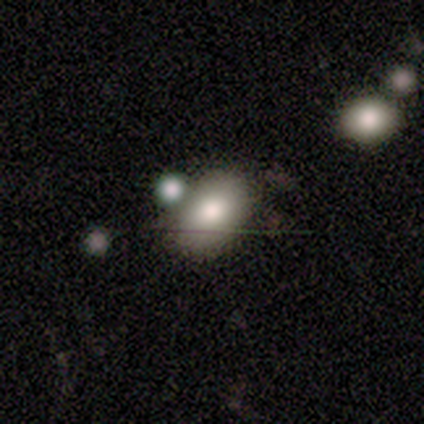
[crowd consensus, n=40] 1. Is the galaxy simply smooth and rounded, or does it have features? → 85% smooth, 8% featured or disk, 8% star or artifact.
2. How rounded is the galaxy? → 91% in between, 9% round, 0% cigar-shaped.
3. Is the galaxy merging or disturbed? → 57% none, 24% minor disturbance, 14% merger, 5% major disturbance.